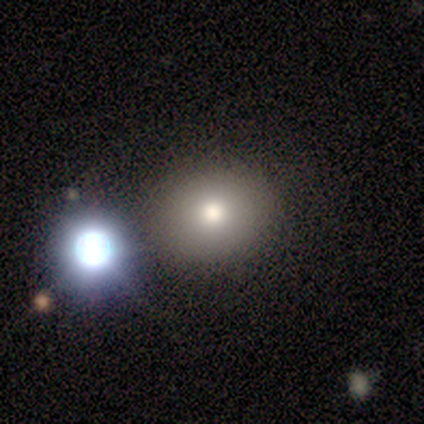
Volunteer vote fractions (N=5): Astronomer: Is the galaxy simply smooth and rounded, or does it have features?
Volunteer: smooth — 100%.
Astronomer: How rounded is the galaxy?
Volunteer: round — 80%.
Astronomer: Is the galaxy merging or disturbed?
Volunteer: none — 80%.